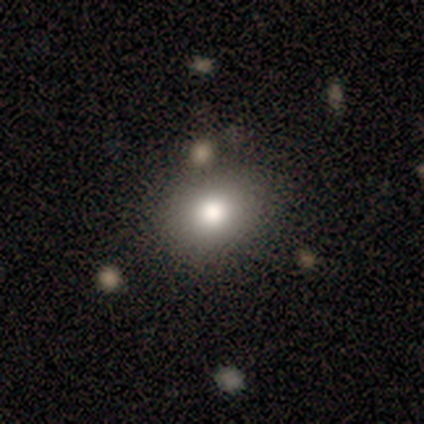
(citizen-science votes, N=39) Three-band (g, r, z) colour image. It shows a smooth galaxy with no disk features (82%) that is round (56%). Merging: none (60%).